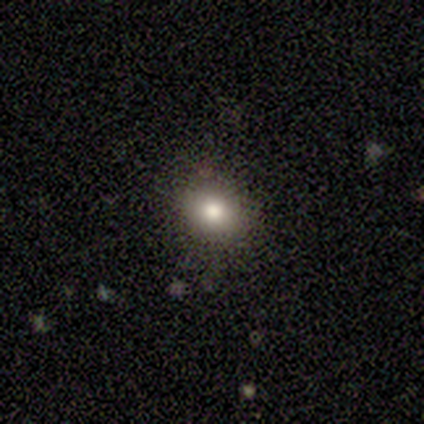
smooth-or-featured: smooth: 100% | featured or disk: 0% | star or artifact: 0%
  how-rounded: round: 80% | in between: 20% | cigar-shaped: 0%
  merging: none: 80% | major disturbance: 20% | minor disturbance: 0% | merger: 0%